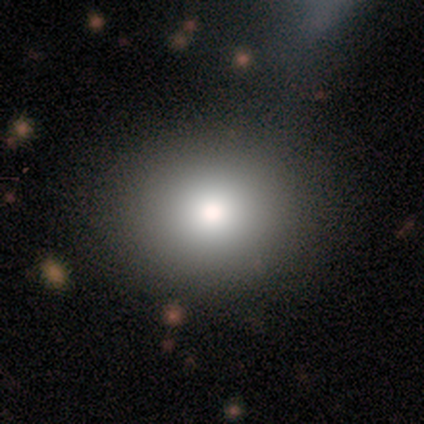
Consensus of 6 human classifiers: smooth 83%, star or artifact 17%, featured or disk 0%. Down the decision tree: how rounded — round (60%); merging — none (80%).